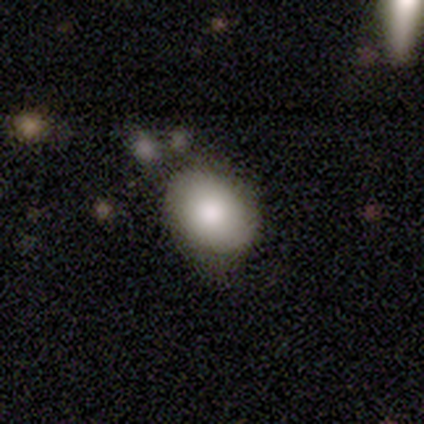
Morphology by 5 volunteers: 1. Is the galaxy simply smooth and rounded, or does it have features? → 80% smooth, 20% star or artifact, 0% featured or disk.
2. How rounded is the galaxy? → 75% round, 25% in between, 0% cigar-shaped.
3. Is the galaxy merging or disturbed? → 50% minor disturbance, 25% none, 25% merger, 0% major disturbance.